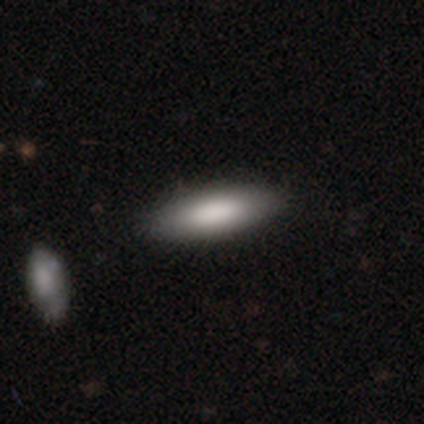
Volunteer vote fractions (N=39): smooth-or-featured: smooth: 87% | featured or disk: 10% | star or artifact: 3%
  how-rounded: in between: 53% | cigar-shaped: 47% | round: 0%
  merging: none: 66% | merger: 8% | minor disturbance: 3% | major disturbance: 0%